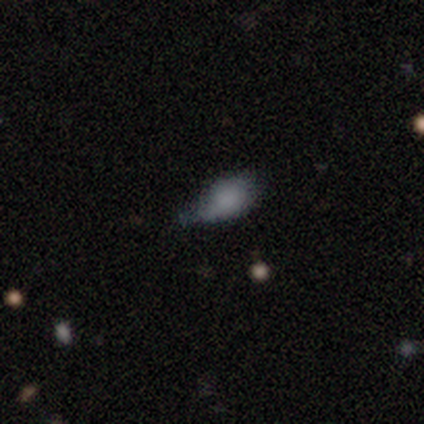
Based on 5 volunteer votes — A smooth galaxy with no disk features (80%) that is in between round and cigar-shaped (75%). Merging: none (50%, tied with minor disturbance).